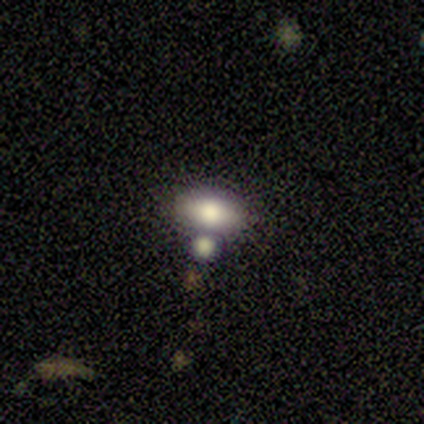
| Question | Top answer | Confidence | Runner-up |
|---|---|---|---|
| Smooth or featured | smooth | 75% | featured or disk (25%) |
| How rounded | in between | 100% | — |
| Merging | merger | 100% | — |